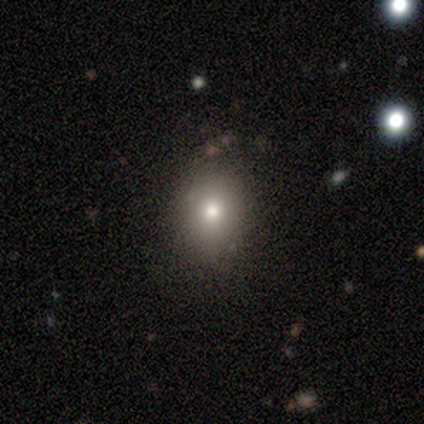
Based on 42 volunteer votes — Q: Smooth or featured?
A: smooth (60%); runner-up: featured or disk (26%)
Q: How rounded?
A: in between (64%); runner-up: round (36%)
Q: Merging?
A: none (86%); runner-up: minor disturbance (11%)